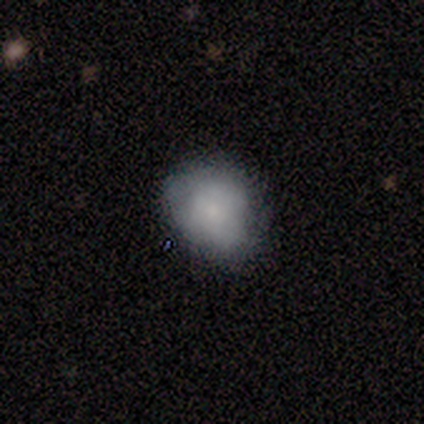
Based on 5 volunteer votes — Morphology: type=smooth (80%); roundness=round (50%, tied with in between); merging=none (100%).